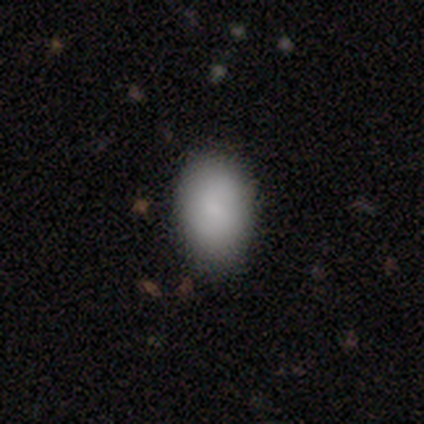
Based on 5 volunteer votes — Smooth or featured? 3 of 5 (60%) said smooth. How rounded? 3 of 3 (100%) said in between. Merging? 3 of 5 (60%) said none.